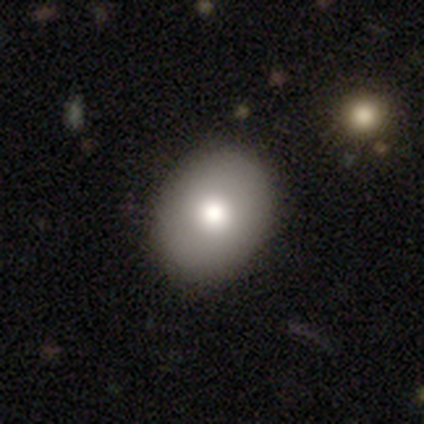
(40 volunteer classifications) Smooth or featured? smooth (80%)
How rounded? round (50%, tied with in between)
Merging? none (95%)